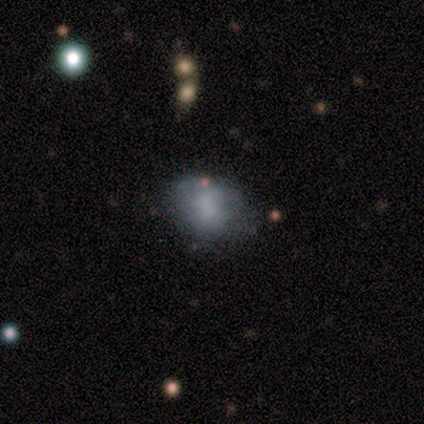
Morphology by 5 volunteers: smooth-or-featured: smooth: 60% | featured or disk: 40% | star or artifact: 0%
  how-rounded: in between: 67% | round: 33% | cigar-shaped: 0%
  merging: minor disturbance: 60% | none: 40% | major disturbance: 0% | merger: 0%